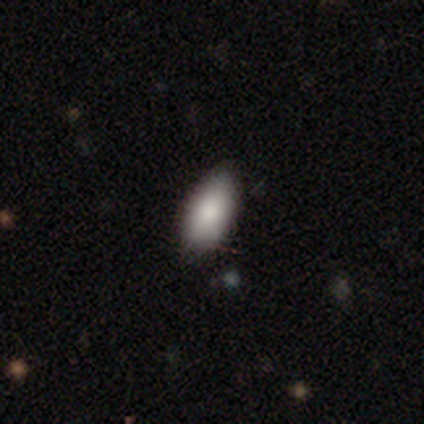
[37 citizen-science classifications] smooth-or-featured: smooth: 81% | star or artifact: 14% | featured or disk: 5%
  how-rounded: in between: 83% | round: 10% | cigar-shaped: 7%
  merging: none: 75% | minor disturbance: 25% | major disturbance: 0% | merger: 0%